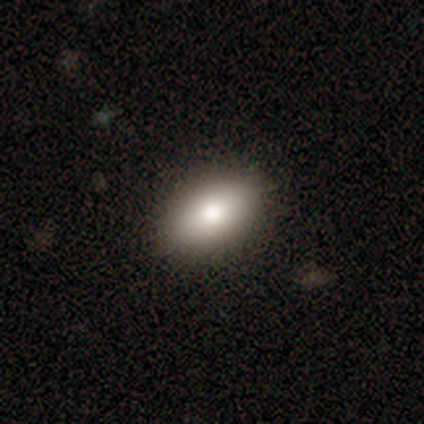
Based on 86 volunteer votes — smooth 78%, star or artifact 12%, featured or disk 10%. Down the decision tree: how rounded — in between (93%); merging — none (91%).